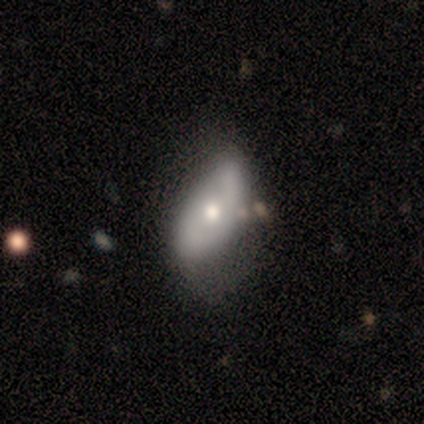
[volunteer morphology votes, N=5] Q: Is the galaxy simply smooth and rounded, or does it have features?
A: featured or disk — 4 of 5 (80%).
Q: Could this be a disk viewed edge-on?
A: no — 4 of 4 (100%).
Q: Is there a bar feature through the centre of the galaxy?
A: no — 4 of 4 (100%).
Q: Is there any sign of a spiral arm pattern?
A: yes — 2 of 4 (50%, tied with no).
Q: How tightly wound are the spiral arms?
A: tight — 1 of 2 (50%, tied with loose).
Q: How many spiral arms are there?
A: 2 — 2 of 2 (100%).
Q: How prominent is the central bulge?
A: moderate — 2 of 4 (50%, tied with small).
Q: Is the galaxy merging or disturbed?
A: none — 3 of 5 (60%).